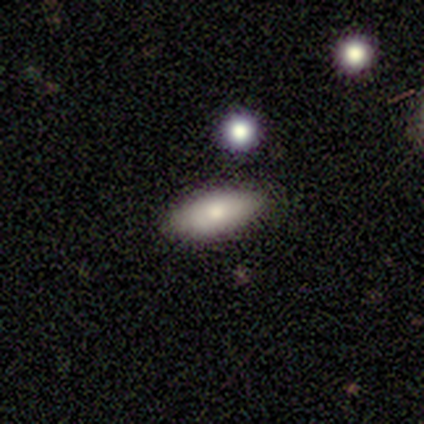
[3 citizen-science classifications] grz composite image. It shows a smooth galaxy with no disk features (67%) that is in between round and cigar-shaped (100%). Merging: none (33%, tied with minor disturbance and merger).